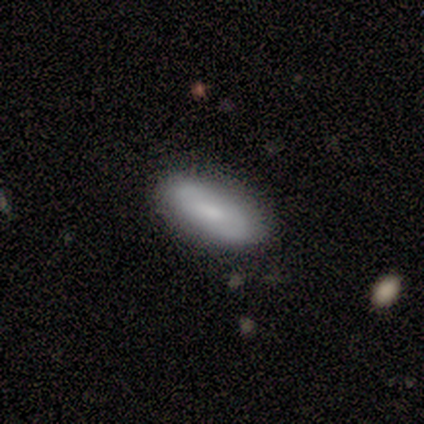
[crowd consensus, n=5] Smooth or featured?
  - smooth: 100% *
  - featured or disk: 0%
  - star or artifact: 0%
How rounded?
  - in between: 100% *
  - round: 0%
  - cigar-shaped: 0%
Merging?
  - none: 100% *
  - minor disturbance: 0%
  - major disturbance: 0%
  - merger: 0%